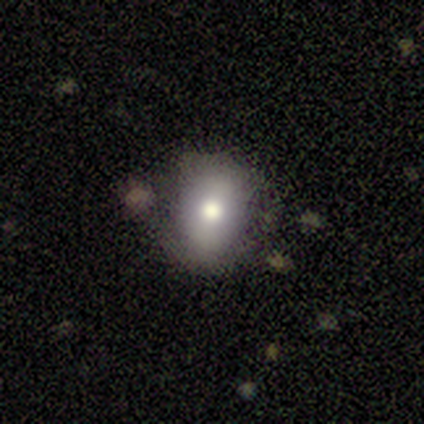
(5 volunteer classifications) Q: Smooth or featured?
A: smooth (80%); runner-up: featured or disk (20%)
Q: How rounded?
A: round (50%); tied with: in between (50%)
Q: Merging?
A: none (80%); runner-up: major disturbance (20%)